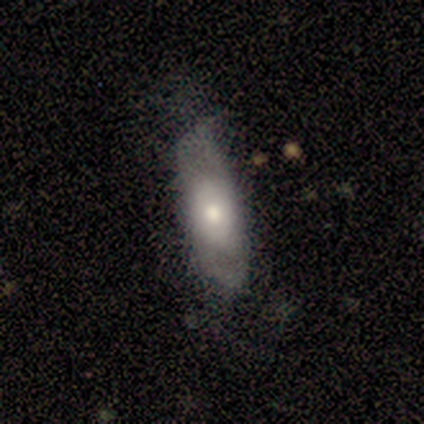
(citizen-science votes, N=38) Smooth or featured? 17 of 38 (45%, tied with featured or disk) said smooth. How rounded? 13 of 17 (76%) said in between. Merging? 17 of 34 (50%) said none.